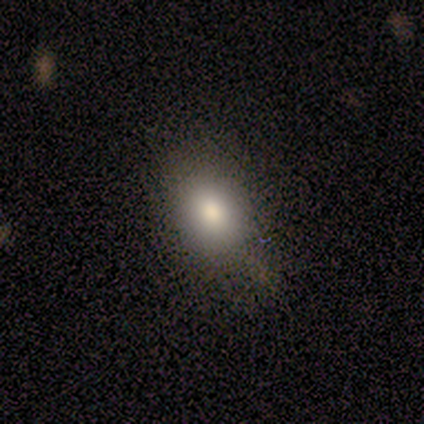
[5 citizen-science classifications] A smooth galaxy with no disk features (80%) that is round (75%).

Vote fractions:
- Smooth or featured? smooth: 80% / featured or disk: 20% / star or artifact: 0%
- How rounded? round: 75% / in between: 25% / cigar-shaped: 0%
- Merging? none: 80% / minor disturbance: 20% / major disturbance: 0% / merger: 0%